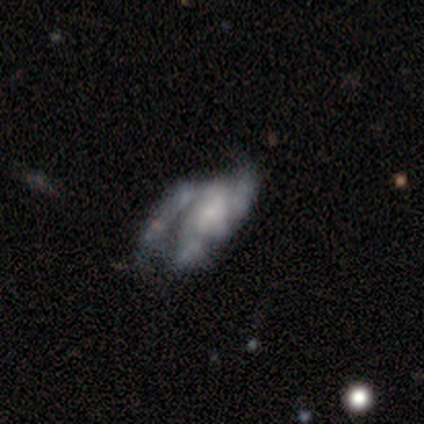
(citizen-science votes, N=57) A featured or disk galaxy (56%) with no bar (74%), medium (35%, tied with loose) spiral arms (55%) and a small central bulge (45%).

Vote fractions:
- Smooth or featured? featured or disk: 56% / smooth: 35% / star or artifact: 9%
- Edge-on disk? no: 97% / yes: 3%
- Bar? no: 74% / weak: 23% / strong: 3%
- Spiral arms? yes: 55% / no: 45%
- Spiral winding? medium: 35% (tied) / loose: 35% (tied) / tight: 29%
- Spiral arm count? can't tell: 35% / 2: 29% / 3: 29% / 1: 6% / 4: 0% / more than 4: 0%
- Bulge size? small: 45% / none: 26% / moderate: 19% / large: 10% / dominant: 0%
- Merging? major disturbance: 48% / none: 25% / minor disturbance: 17% / merger: 10%